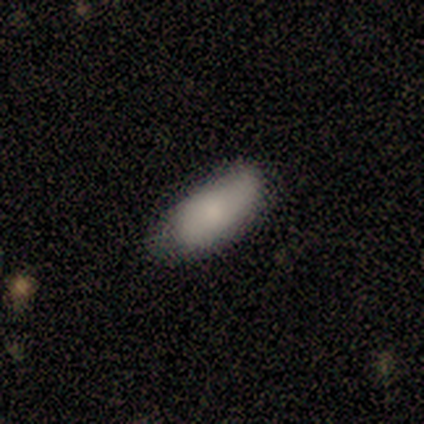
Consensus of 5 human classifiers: Overall: smooth (100%). How rounded: in between (80%). Merging: minor disturbance (80%).